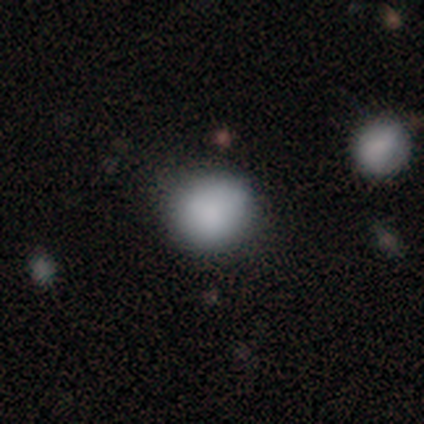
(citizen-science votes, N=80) smooth-or-featured: smooth: 88% | star or artifact: 8% | featured or disk: 5%
  how-rounded: round: 89% | in between: 11% | cigar-shaped: 0%
  merging: none: 42% | minor disturbance: 12% | merger: 5% | major disturbance: 4%